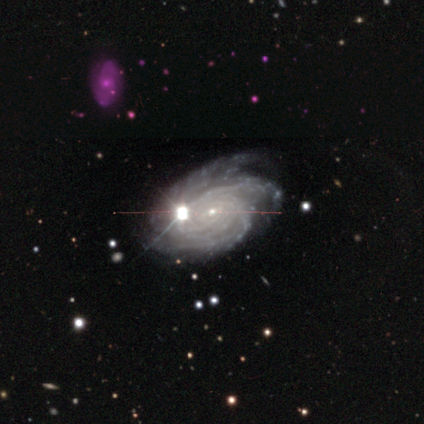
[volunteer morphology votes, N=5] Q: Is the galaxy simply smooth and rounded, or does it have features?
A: featured or disk — 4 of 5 (80%).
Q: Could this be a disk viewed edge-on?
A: no — 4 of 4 (100%).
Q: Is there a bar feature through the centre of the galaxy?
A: no — 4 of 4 (100%).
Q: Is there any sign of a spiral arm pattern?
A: yes — 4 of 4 (100%).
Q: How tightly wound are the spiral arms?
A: tight — 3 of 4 (75%).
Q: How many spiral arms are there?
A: more than 4 — 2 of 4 (50%).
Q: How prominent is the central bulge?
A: small — 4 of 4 (100%).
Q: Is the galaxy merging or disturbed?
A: none — 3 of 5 (60%).